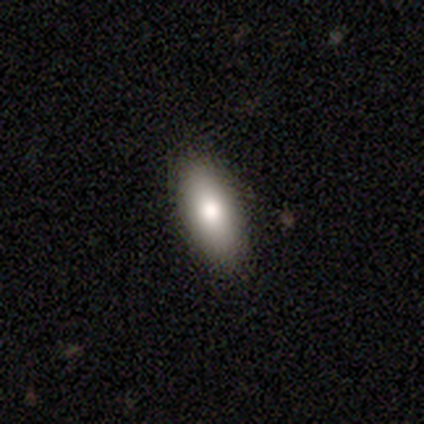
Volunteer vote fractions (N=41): This is clearly a smooth galaxy (85%). How rounded: likely in between (71%). Merging: clearly none (92%).